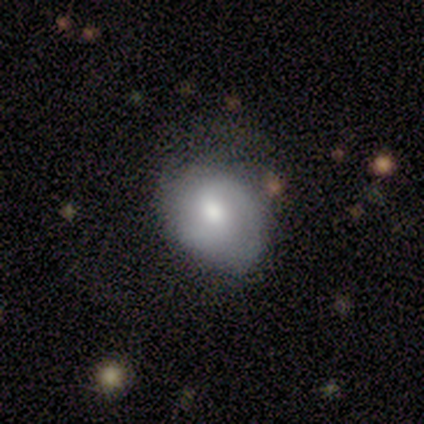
Smooth or featured: featured or disk — 71% (smooth — 29%)
Edge-on disk: no — 100%
Bar: weak — 60% (no — 40%)
Spiral arms: yes — 80% (no — 20%)
Spiral winding: tight — 50% (medium — 25%)
Spiral arm count: 2 — 100%
Bulge size: moderate — 80% (large — 20%)
Merging: none — 86% (major disturbance — 14%)